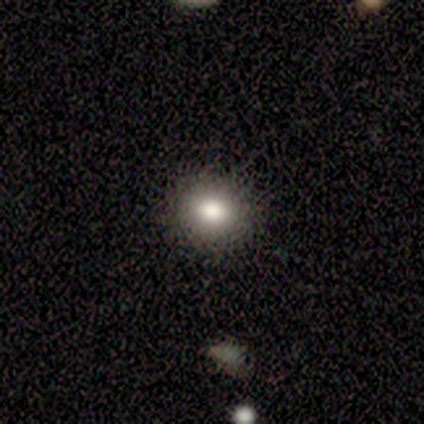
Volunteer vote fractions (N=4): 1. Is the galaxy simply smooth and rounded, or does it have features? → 75% smooth, 25% featured or disk, 0% star or artifact.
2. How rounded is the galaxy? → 100% round, 0% in between, 0% cigar-shaped.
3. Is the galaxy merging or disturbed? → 100% none, 0% minor disturbance, 0% major disturbance, 0% merger.